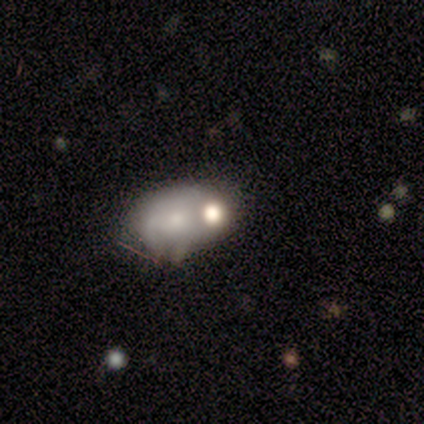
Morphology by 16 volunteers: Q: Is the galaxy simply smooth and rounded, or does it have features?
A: smooth — 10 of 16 (62%).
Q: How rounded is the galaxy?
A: in between — 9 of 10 (90%).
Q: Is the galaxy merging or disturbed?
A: merger — 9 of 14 (64%).